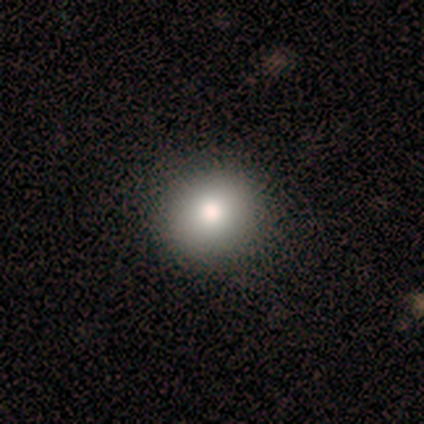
Q: Smooth or featured?
A: smooth (100%)
Q: How rounded?
A: round (100%)
Q: Merging?
A: none (75%); runner-up: minor disturbance (25%)